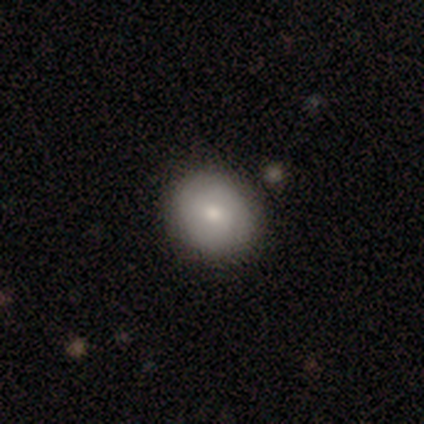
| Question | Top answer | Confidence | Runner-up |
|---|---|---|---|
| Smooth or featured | smooth | 82% | featured or disk (13%) |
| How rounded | round | 78% | in between (19%) |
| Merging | none | 65% | merger (5%) |